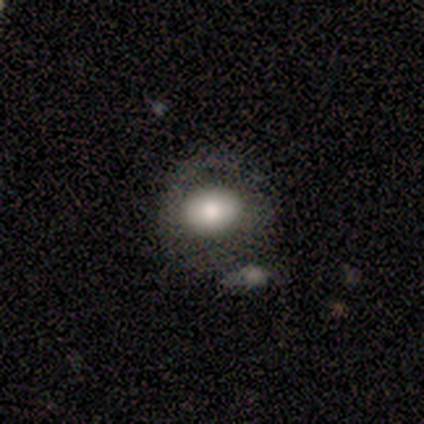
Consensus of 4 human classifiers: Morphology: type=smooth (100%); roundness=in between (75%); merging=none (75%).